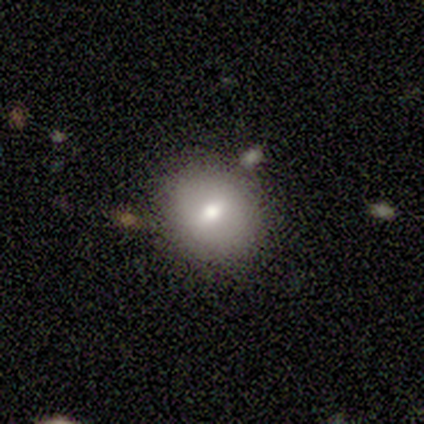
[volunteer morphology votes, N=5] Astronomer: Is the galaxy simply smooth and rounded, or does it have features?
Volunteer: smooth — 100%.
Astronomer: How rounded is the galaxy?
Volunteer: in between — 60% (runner-up: round, 40%).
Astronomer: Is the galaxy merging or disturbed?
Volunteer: none — 80%.